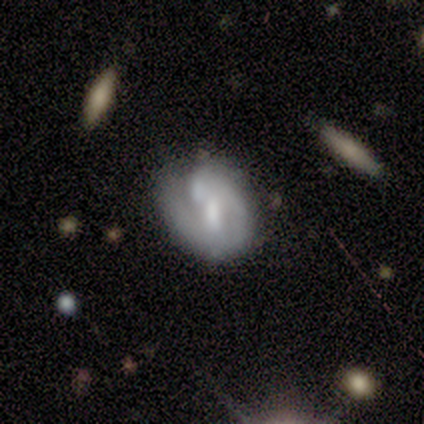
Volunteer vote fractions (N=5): Smooth or featured? 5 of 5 (100%) said featured or disk. Edge-on disk? 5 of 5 (100%) said no. Bar? 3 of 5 (60%) said no. Spiral arms? 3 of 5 (60%) said yes. Spiral winding? 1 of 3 (33%, tied with medium and loose) said tight. Spiral arm count? 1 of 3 (33%, tied with 2 and can't tell) said 1. Bulge size? 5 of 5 (100%) said moderate. Merging? 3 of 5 (60%) said none.